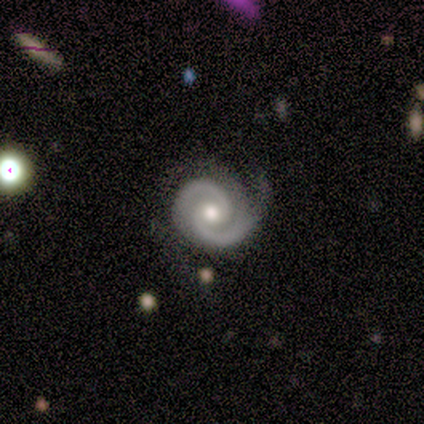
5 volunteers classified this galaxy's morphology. This appears to be a featured or disk galaxy (100%) with no bar (100%), 2 (80%) medium (60%) spiral arms (100%) and a moderate central bulge (80%). Merging: none (60%).